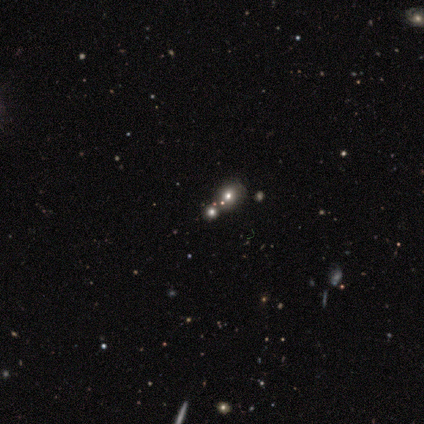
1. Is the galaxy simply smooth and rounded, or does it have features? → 50% smooth (tied), 50% star or artifact (tied), 0% featured or disk.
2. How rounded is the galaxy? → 100% round, 0% in between, 0% cigar-shaped.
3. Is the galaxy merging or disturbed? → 50% none (tied), 50% merger (tied), 0% minor disturbance, 0% major disturbance.